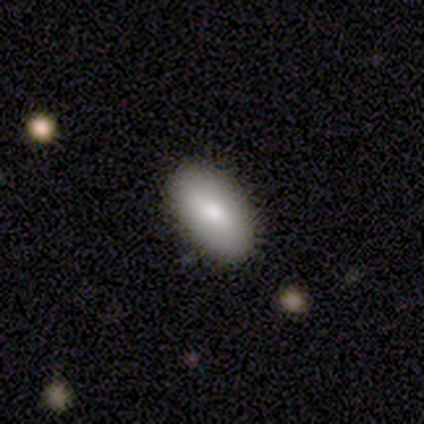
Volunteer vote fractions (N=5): smooth_or_featured: smooth (p=0.80) [alt: star or artifact p=0.20]
how_rounded: in between (p=1.00)
merging: none (p=0.75) [alt: minor disturbance p=0.25]